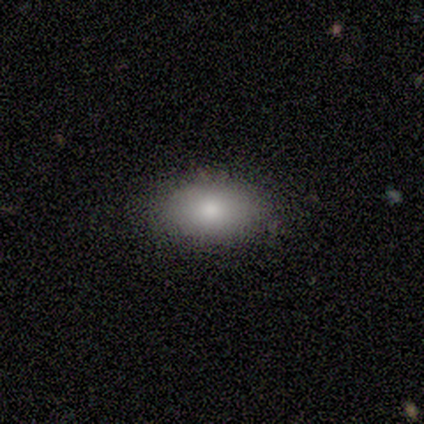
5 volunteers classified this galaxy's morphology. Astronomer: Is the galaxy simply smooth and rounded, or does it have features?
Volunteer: smooth — 100%.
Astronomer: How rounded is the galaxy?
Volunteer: in between — 100%.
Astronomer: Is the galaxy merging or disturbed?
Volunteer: none — 80%.